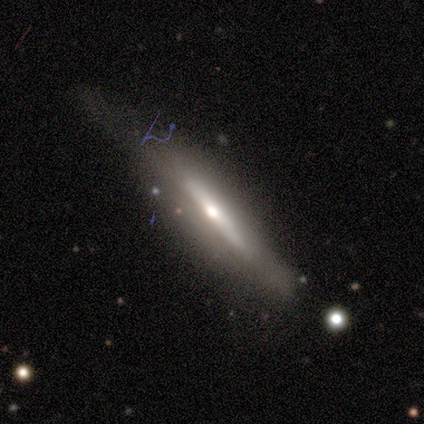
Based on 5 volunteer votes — Q: Smooth or featured?
A: smooth (60%); runner-up: featured or disk (40%)
Q: How rounded?
A: cigar-shaped (67%); runner-up: in between (33%)
Q: Merging?
A: none (40%); tied with: major disturbance (40%)